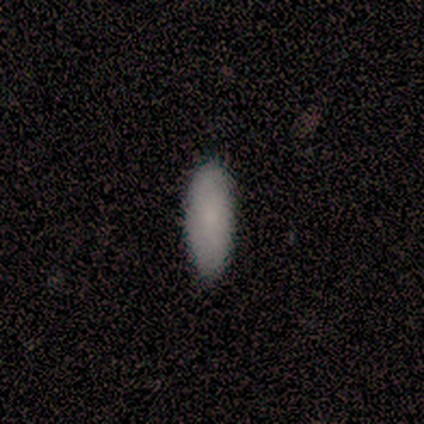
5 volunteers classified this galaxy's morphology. smooth_or_featured: smooth (p=0.80) [alt: star or artifact p=0.20]
how_rounded: in between (p=0.50) [tied with: cigar-shaped p=0.50]
merging: none (p=1.00)